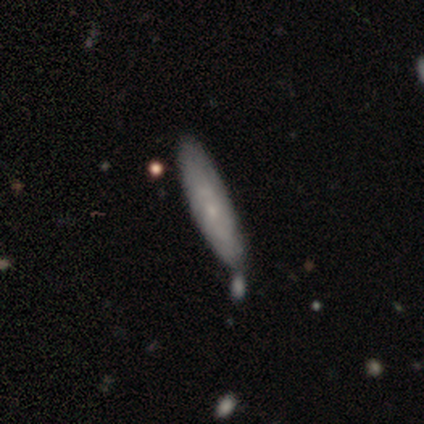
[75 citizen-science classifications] smooth 53%, featured or disk 41%, star or artifact 5%. Down the decision tree: how rounded — cigar-shaped (72%); merging — none (59%).